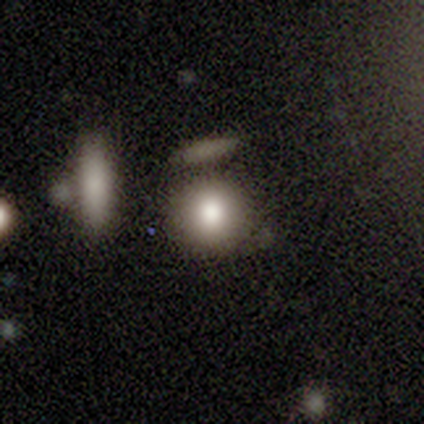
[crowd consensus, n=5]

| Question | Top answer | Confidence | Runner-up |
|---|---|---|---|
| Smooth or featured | smooth | 100% | — |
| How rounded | round | 80% | in between (20%) |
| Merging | none | 40% | minor disturbance (20%) |